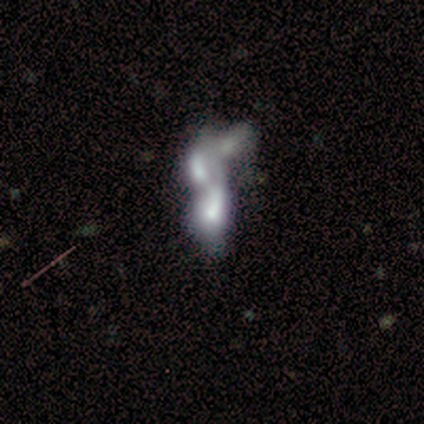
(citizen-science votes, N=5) Smooth or featured? 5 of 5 (100%) said featured or disk. Edge-on disk? 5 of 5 (100%) said no. Bar? 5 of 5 (100%) said no. Spiral arms? 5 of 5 (100%) said no. Bulge size? 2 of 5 (40%, tied with none) said dominant. Merging? 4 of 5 (80%) said merger.